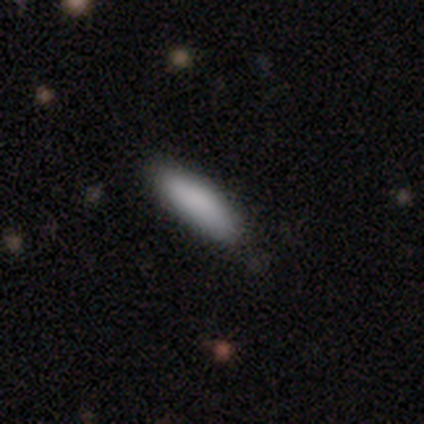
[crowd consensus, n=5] Smooth or featured: smooth — 80% (featured or disk — 20%)
How rounded: in between — 75% (cigar-shaped — 25%)
Merging: none — 100%